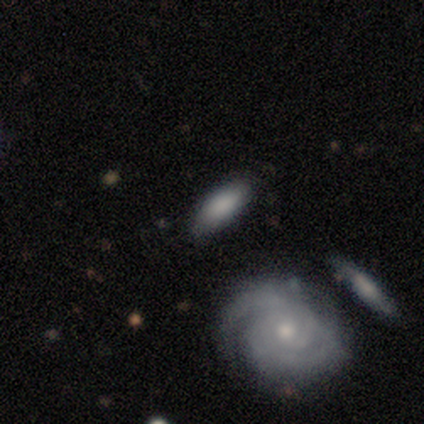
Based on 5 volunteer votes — Q: Smooth or featured?
A: smooth (100%)
Q: How rounded?
A: in between (80%); runner-up: cigar-shaped (20%)
Q: Merging?
A: none (100%)